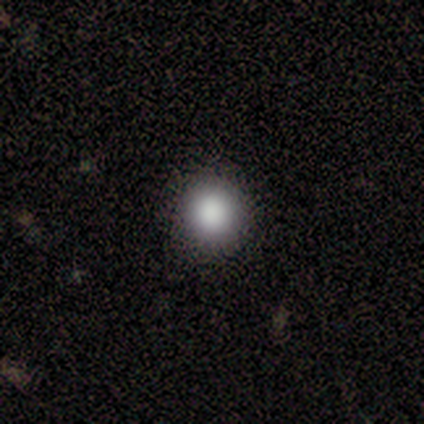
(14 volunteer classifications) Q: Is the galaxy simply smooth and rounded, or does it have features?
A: smooth — 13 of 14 (93%).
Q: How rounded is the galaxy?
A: round — 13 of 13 (100%).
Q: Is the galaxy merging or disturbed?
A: none — 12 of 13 (92%).